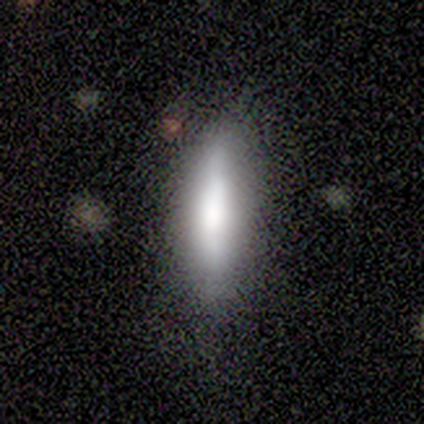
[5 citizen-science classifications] smooth 60%, featured or disk 40%, star or artifact 0%. Down the decision tree: how rounded — cigar-shaped (67%); merging — none (60%).